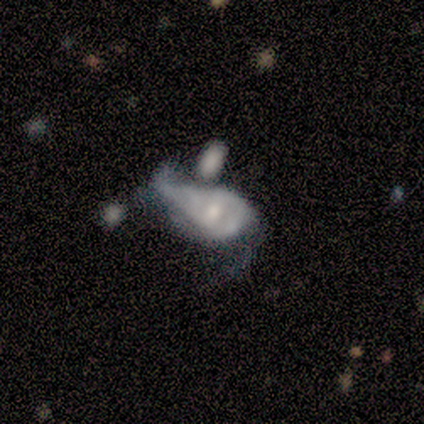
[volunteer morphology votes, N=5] smooth-or-featured: featured or disk: 100% | smooth: 0% | star or artifact: 0%
  disk-edge-on: no: 100% | yes: 0%
    bar: no: 60% | weak: 40% | strong: 0%
    has-spiral-arms: yes: 80% | no: 20%
      spiral-winding: loose: 75% | medium: 25% | tight: 0%
      spiral-arm-count: 2: 75% | can't tell: 25% | 1: 0% | 3: 0% | 4: 0% | more than 4: 0%
    bulge-size: small: 60% | moderate: 40% | dominant: 0% | large: 0% | none: 0%
  merging: minor disturbance: 40% (tied) | merger: 40% (tied) | major disturbance: 20% | none: 0%